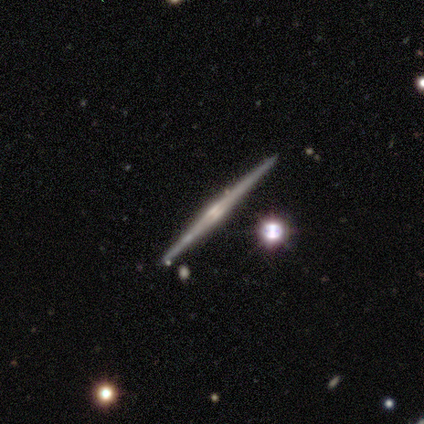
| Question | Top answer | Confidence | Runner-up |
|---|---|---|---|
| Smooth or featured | featured or disk | 100% | — |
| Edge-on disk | yes | 100% | — |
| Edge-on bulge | rounded | 60% | boxy (20%) |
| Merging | none | 80% | minor disturbance (20%) |